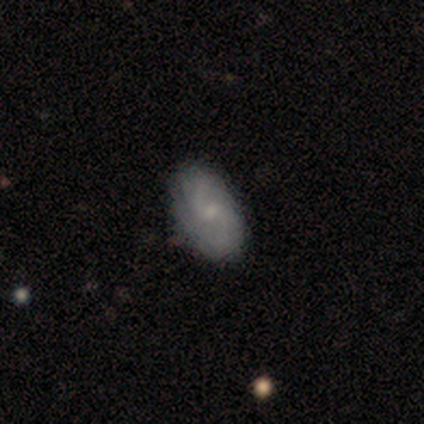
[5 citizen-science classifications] Smooth or featured? featured or disk (80%)
Edge-on disk? no (100%)
Bar? weak (75%)
Spiral arms? yes (100%)
Spiral winding? loose (50%)
Spiral arm count? 2 (75%)
Bulge size? small (75%)
Merging? none (60%)